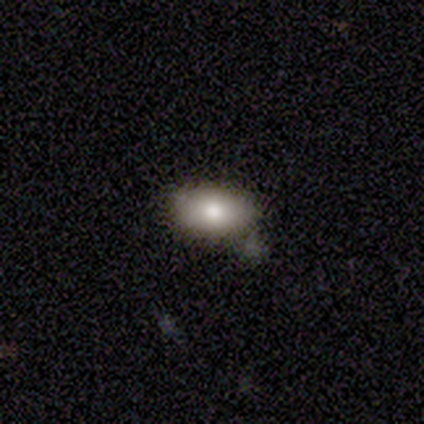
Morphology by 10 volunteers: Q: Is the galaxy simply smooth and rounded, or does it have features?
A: smooth — 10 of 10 (100%).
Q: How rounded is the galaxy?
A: in between — 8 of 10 (80%).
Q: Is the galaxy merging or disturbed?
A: none — 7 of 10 (70%).